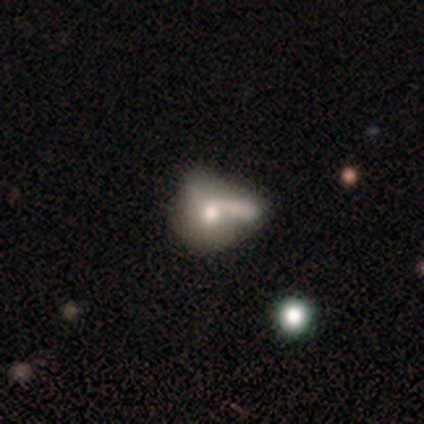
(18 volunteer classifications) A smooth galaxy with no disk features (56%) that is in between round and cigar-shaped (60%). Merging: merger (44%).